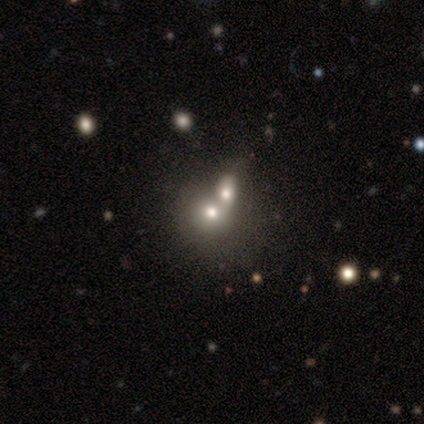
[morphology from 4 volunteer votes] Smooth or featured? 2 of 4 (50%) said smooth. How rounded? 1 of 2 (50%, tied with in between) said round. Merging? 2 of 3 (67%) said merger.